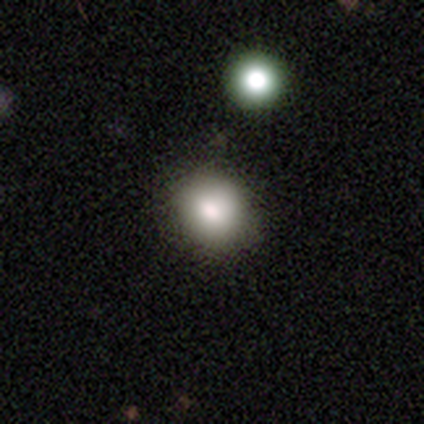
Smooth or featured?
  - smooth: 92% *
  - featured or disk: 8%
  - star or artifact: 0%
How rounded?
  - round: 76% *
  - in between: 24%
  - cigar-shaped: 0%
Merging?
  - none: 57% *
  - minor disturbance: 8%
  - merger: 5%
  - major disturbance: 0%